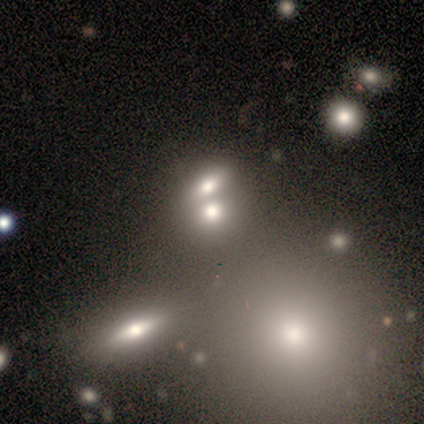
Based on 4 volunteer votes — Q: Smooth or featured?
A: smooth (50%); runner-up: featured or disk (25%)
Q: How rounded?
A: round (50%); tied with: in between (50%)
Q: Merging?
A: none (33%); tied with: minor disturbance (33%); merger (33%)